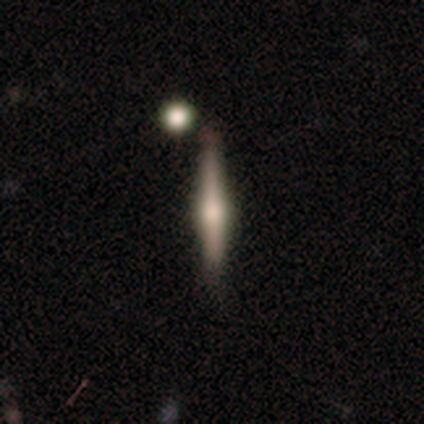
Smooth or featured? featured or disk (60%)
Edge-on disk? yes (67%)
Edge-on bulge? rounded (100%)
Merging? none (75%)